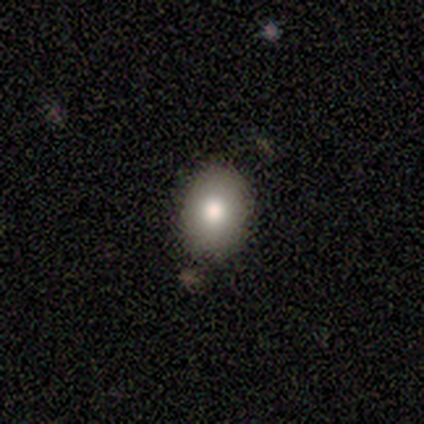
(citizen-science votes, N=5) This appears to be a smooth galaxy with no disk features (80%) that is in between round and cigar-shaped (100%). Merging: none (80%).